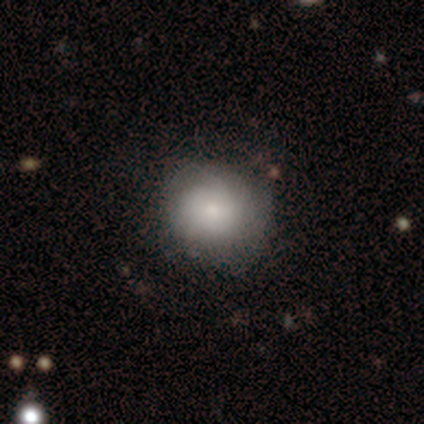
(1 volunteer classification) Smooth or featured: star or artifact — 100%